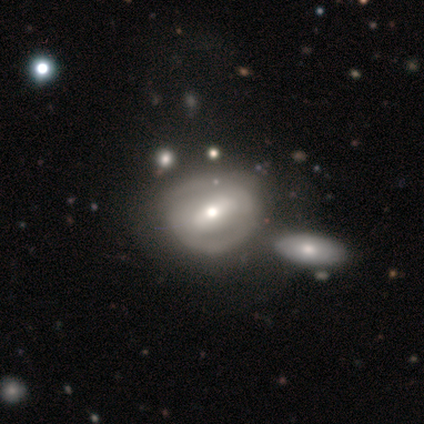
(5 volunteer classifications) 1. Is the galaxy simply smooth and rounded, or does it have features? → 40% smooth (tied), 40% featured or disk (tied), 20% star or artifact.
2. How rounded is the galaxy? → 100% round, 0% in between, 0% cigar-shaped.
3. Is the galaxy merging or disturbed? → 25% none (tied), 25% minor disturbance (tied), 25% major disturbance (tied), 25% merger (tied).